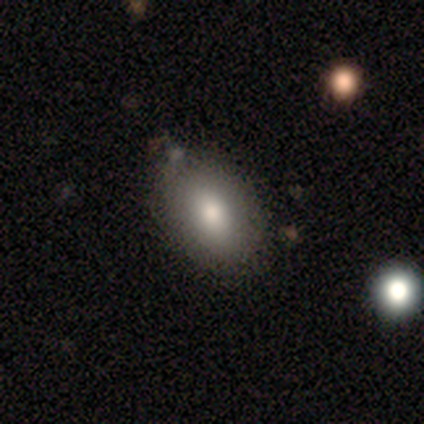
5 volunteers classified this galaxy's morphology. Smooth or featured? 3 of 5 (60%) said smooth. How rounded? 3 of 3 (100%) said in between. Merging? 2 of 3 (67%) said minor disturbance.